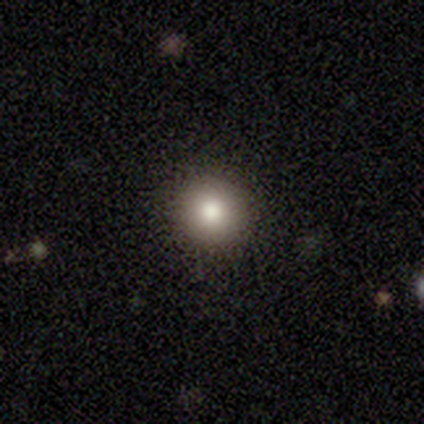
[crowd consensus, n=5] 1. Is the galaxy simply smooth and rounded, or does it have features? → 80% smooth, 20% featured or disk, 0% star or artifact.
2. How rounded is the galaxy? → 100% round, 0% in between, 0% cigar-shaped.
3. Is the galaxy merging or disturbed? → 100% none, 0% minor disturbance, 0% major disturbance, 0% merger.